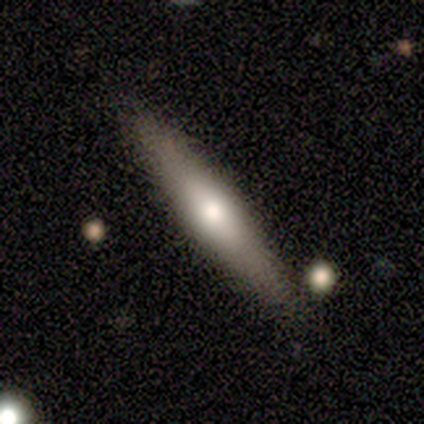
Morphology: type=featured or disk (67%); edge-on=yes (100%); edge-on bulge=rounded (100%); merging=none (83%).